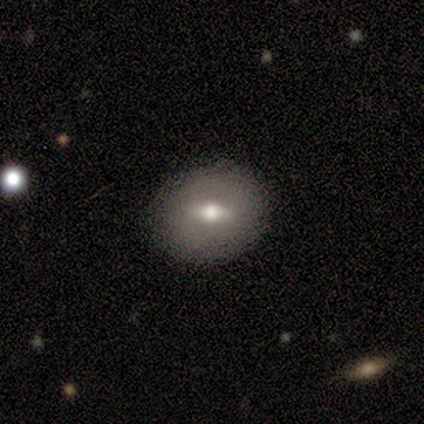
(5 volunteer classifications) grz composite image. It shows a featured or disk galaxy (60%) with a weak bar (50%, tied with no), no spiral arms (100%) and a moderate central bulge (50%, tied with small). Merging: none (80%).